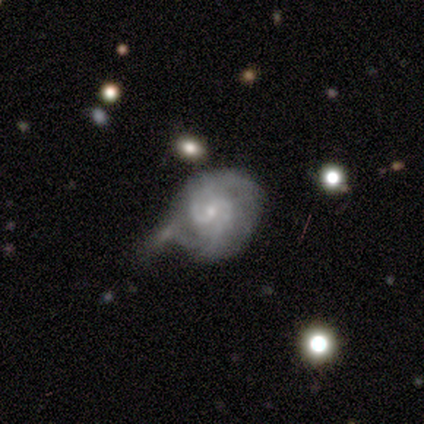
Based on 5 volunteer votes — This is clearly a featured or disk galaxy (80%). It is clearly not viewed edge-on (100%). Bar: possibly weak (50%, tied with no). Spiral arm pattern: clearly yes (100%). Spiral arm count: likely 2 (75%). Spiral winding: possibly tight (50%, tied with medium). Central bulge: likely small (75%). Merging: marginally none (40%, tied with minor disturbance).